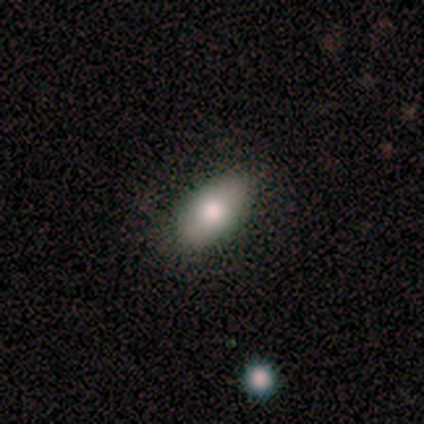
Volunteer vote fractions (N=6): smooth_or_featured: smooth (p=0.67) [alt: featured or disk p=0.17]
how_rounded: in between (p=1.00)
merging: none (p=1.00)